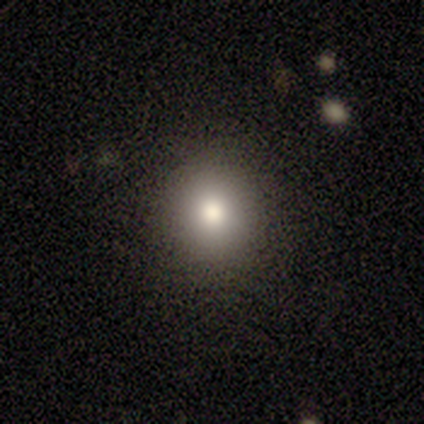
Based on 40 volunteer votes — Q: Smooth or featured?
A: smooth (80%); runner-up: star or artifact (15%)
Q: How rounded?
A: round (97%); runner-up: in between (3%)
Q: Merging?
A: none (94%); runner-up: minor disturbance (6%)